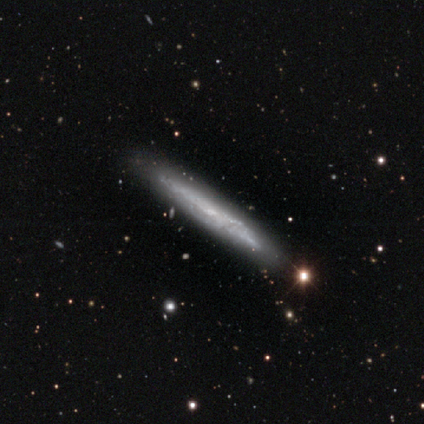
Volunteers were most divided on "smooth or featured" (2-way tie): featured or disk: 40%, star or artifact: 40%, smooth: 20%; "edge-on disk" (2-way tie): yes: 50%, no: 50%. More confident: edge-on bulge — rounded (100%); merging — none (100%).